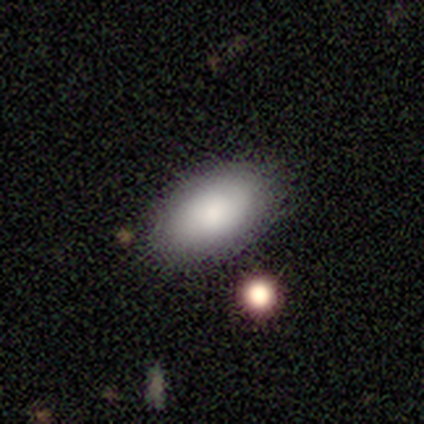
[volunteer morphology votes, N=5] This is clearly a smooth galaxy (100%). How rounded: clearly in between (100%). Merging: clearly none (100%).